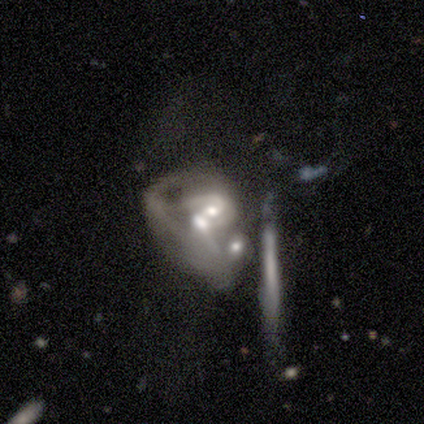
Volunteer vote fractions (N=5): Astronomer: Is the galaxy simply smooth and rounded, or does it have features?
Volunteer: featured or disk — 80%.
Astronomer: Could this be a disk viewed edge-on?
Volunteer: no — 100%.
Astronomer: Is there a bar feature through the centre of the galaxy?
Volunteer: no — 75%.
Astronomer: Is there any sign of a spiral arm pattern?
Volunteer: no — 75%.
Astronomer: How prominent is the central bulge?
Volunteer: moderate — 75%.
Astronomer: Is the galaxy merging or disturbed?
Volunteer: merger — 100%.